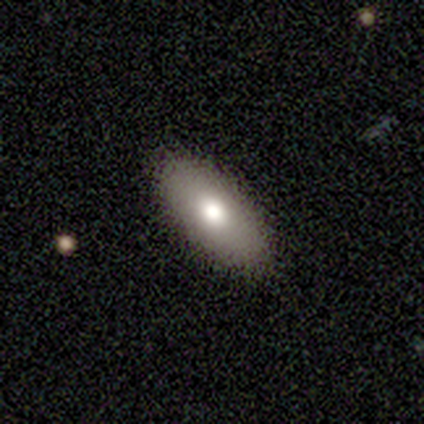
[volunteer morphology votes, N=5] This appears to be a smooth galaxy with no disk features (60%) that is in between round and cigar-shaped (100%). Merging: none (100%).